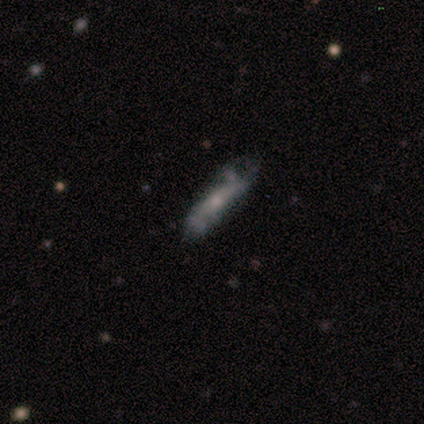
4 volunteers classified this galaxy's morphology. This appears to be a smooth galaxy with no disk features (50%, tied with featured or disk) that is in between round and cigar-shaped (50%, tied with cigar-shaped). Merging: minor disturbance (50%).